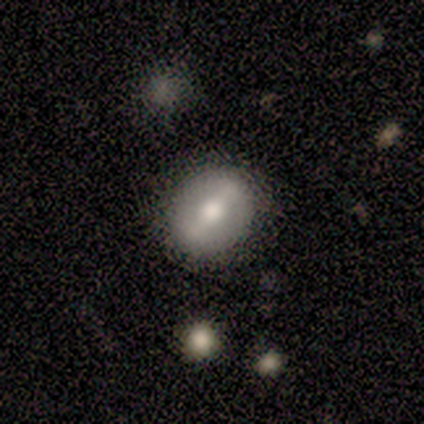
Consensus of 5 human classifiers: Q: Smooth or featured?
A: smooth (80%); runner-up: star or artifact (20%)
Q: How rounded?
A: round (75%); runner-up: in between (25%)
Q: Merging?
A: none (100%)